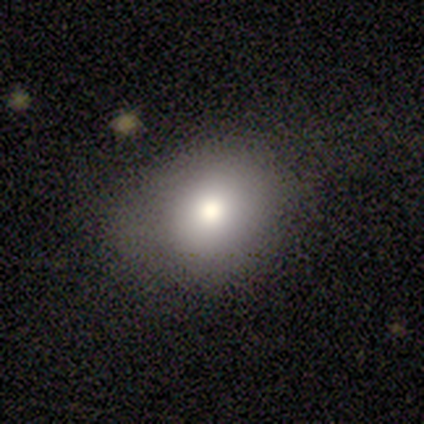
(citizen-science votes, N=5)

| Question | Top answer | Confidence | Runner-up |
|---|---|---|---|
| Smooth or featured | smooth | 100% | — |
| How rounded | in between | 80% | round (20%) |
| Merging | none | 60% | minor disturbance (40%) |